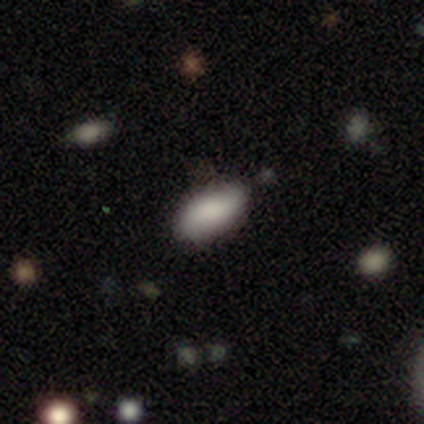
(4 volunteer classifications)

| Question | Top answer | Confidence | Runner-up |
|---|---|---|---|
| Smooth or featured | smooth | 75% | featured or disk (25%) |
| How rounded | in between | 100% | — |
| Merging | none | 75% | minor disturbance (25%) |